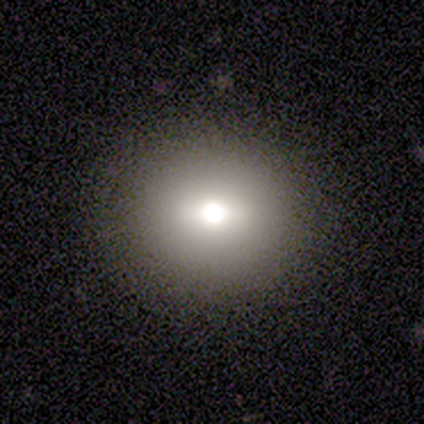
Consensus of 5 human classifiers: Volunteers were most divided on "smooth or featured": smooth: 60%, star or artifact: 40%, featured or disk: 0%. More confident: merging — none (100%); how rounded — round (67%).